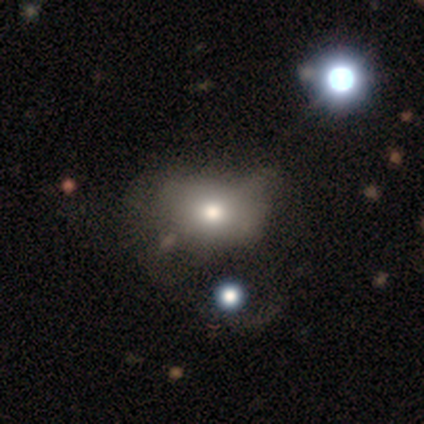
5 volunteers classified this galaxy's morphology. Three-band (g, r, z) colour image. It shows a featured or disk galaxy (60%) with no bar (100%), no spiral arms (100%) and a moderate central bulge (100%). Merging: none (33%, tied with minor disturbance and major disturbance).